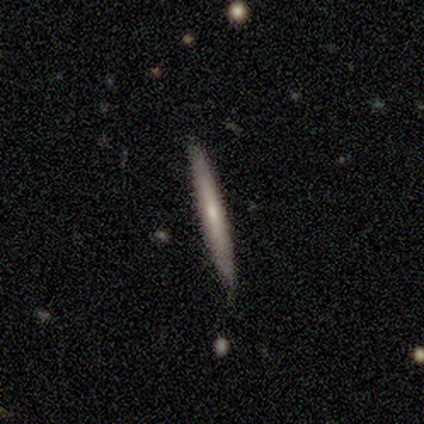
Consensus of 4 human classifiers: This is possibly a smooth galaxy (50%, tied with featured or disk). How rounded: clearly cigar-shaped (100%). Merging: clearly none (100%).